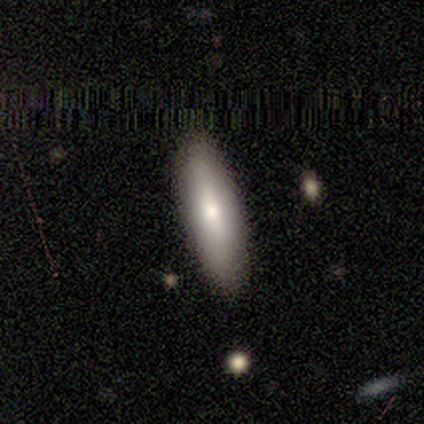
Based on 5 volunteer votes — Volunteers were most divided on "how rounded": cigar-shaped: 75%, in between: 25%, round: 0%. More confident: merging — none (100%); smooth or featured — smooth (80%).